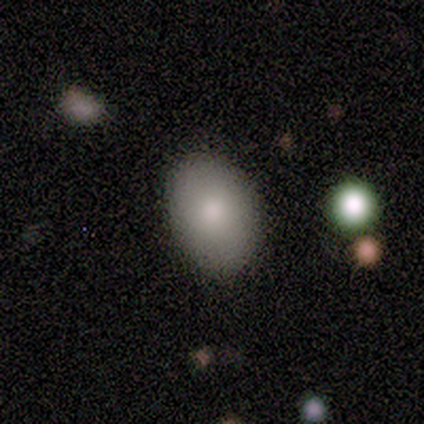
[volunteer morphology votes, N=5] Smooth or featured? smooth (80%)
How rounded? in between (75%)
Merging? none (60%)